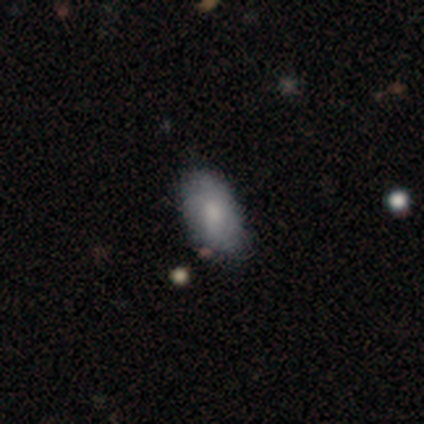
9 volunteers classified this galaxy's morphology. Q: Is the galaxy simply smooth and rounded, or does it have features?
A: smooth — 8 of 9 (89%).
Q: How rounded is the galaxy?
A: in between — 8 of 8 (100%).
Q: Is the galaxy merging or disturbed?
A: none — 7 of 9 (78%).